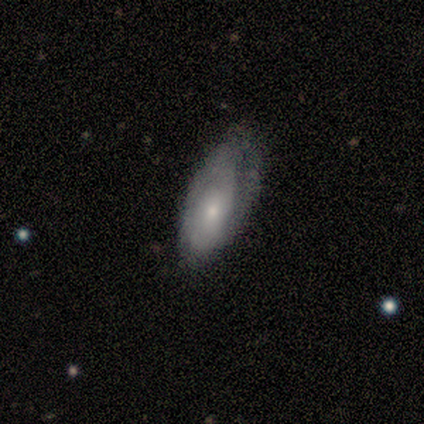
Smooth or featured? featured or disk (75%)
Edge-on disk? no (100%)
Bar? no (100%)
Spiral arms? yes (67%)
Spiral winding? tight (100%)
Spiral arm count? 1 (50%, tied with 2)
Bulge size? small (67%)
Merging? minor disturbance (50%)